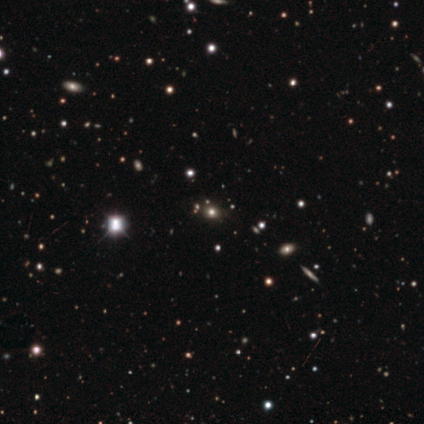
Smooth or featured: smooth — 54% (star or artifact — 46%)
How rounded: round — 86% (in between — 14%)
Merging: none — 100%